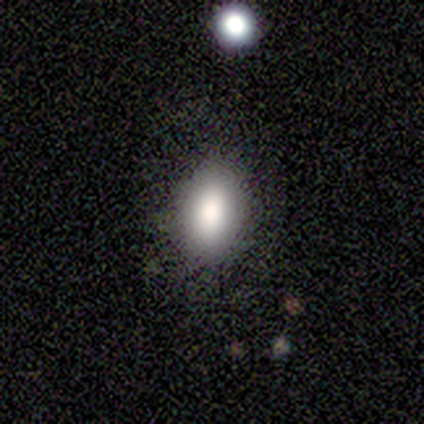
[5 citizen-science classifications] This is likely a smooth galaxy (60%). How rounded: clearly in between (100%). Merging: possibly none (50%).